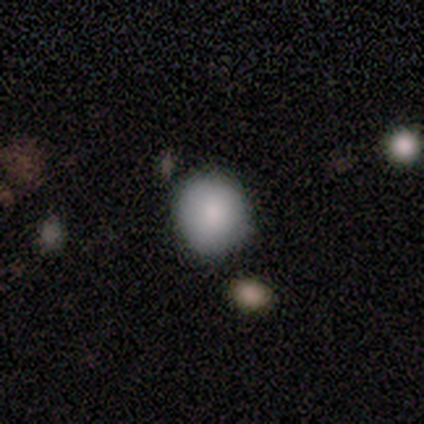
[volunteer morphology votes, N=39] Volunteers were most divided on "how rounded": round: 86%, in between: 14%, cigar-shaped: 0%. More confident: smooth or featured — smooth (90%); merging — none (89%).